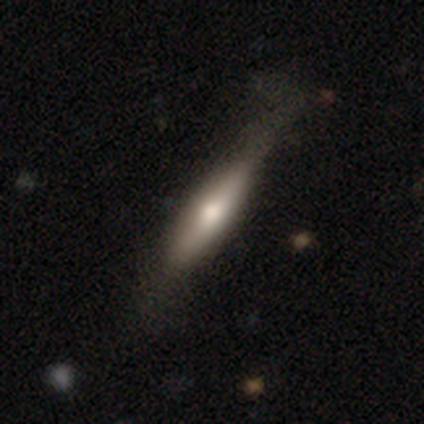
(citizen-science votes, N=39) Overall: featured or disk (56%; smooth 44%). Edge-on disk: yes (86%). Edge-on bulge: rounded (79%). Merging: none (69%).